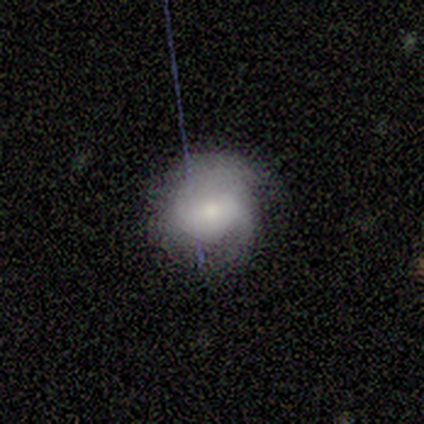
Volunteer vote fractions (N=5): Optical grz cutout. It shows a featured or disk galaxy (60%) with no bar (67%), 1 (67%) medium (67%) spiral arms (100%) and a moderate central bulge (67%). Merging: minor disturbance (60%).